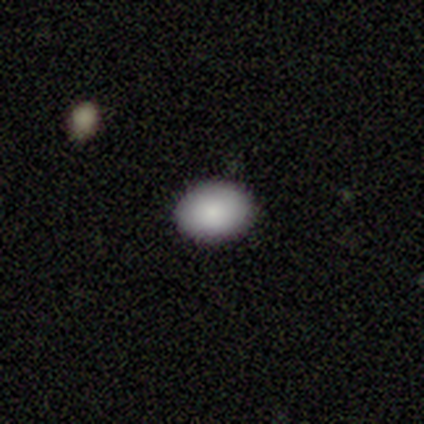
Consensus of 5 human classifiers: This is likely a smooth galaxy (60%). How rounded: likely in between (67%). Merging: clearly none (100%).